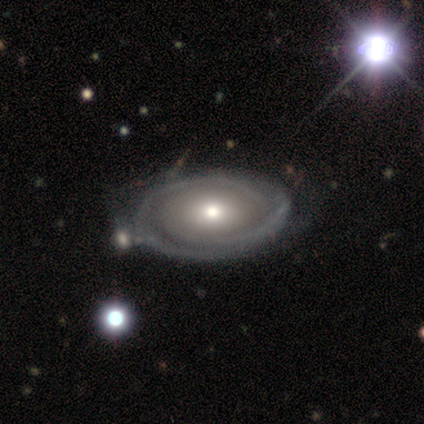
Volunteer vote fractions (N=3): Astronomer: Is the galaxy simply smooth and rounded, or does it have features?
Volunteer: featured or disk — 67%.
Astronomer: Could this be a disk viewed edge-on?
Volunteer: no — 100%.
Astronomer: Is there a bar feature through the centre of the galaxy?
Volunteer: no — 100%.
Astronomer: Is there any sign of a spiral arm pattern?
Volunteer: yes — 50%, tied with no at 50%.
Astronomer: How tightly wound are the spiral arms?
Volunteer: tight — 100%.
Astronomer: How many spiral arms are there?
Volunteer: can't tell — 100%.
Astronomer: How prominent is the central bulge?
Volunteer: large — 50%, tied with small at 50%.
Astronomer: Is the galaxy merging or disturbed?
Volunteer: none — 100%.